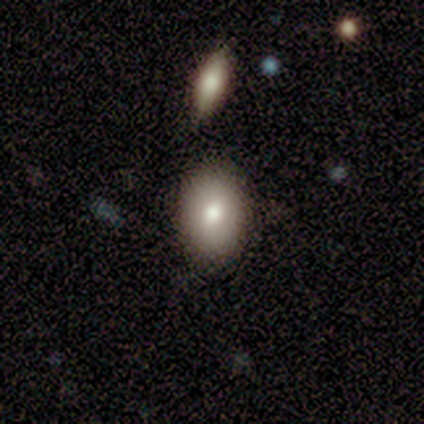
A smooth galaxy with no disk features (60%) that is in between round and cigar-shaped (100%). Merging: none (100%).